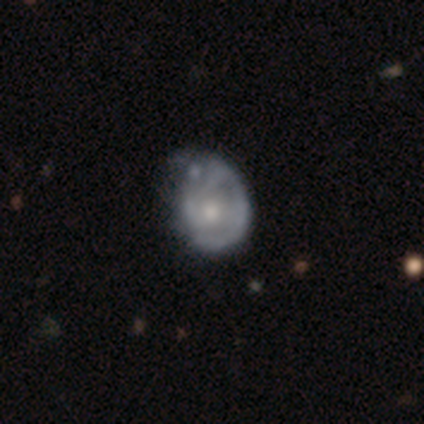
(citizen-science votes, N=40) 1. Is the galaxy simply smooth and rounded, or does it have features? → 75% featured or disk, 25% smooth, 0% star or artifact.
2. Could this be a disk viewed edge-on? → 100% no, 0% yes.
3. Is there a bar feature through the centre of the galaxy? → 77% no, 17% weak, 7% strong.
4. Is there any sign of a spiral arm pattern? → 63% yes, 37% no.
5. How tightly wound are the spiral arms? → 53% medium, 37% tight, 11% loose.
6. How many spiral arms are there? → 47% can't tell, 21% 2, 16% 1, 11% 3, 5% 4, 0% more than 4.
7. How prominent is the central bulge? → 53% moderate, 37% small, 10% large, 0% dominant, 0% none.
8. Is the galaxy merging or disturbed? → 30% minor disturbance, 22% major disturbance, 15% none, 8% merger.